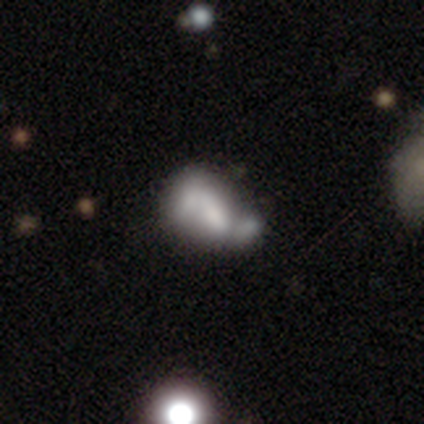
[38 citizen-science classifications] featured or disk 58%, smooth 34%, star or artifact 8%. Down the decision tree: edge-on disk — no (100%); bar — no (64%); spiral arms — no (73%); bulge size — none (36%); merging — merger (34%).